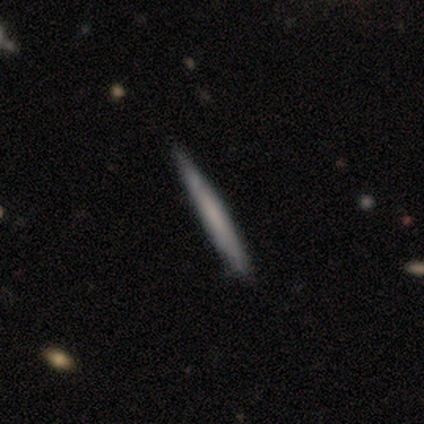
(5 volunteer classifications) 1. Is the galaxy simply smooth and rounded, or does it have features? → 80% smooth, 20% featured or disk, 0% star or artifact.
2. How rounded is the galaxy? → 100% cigar-shaped, 0% round, 0% in between.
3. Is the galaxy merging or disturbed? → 80% none, 20% minor disturbance, 0% major disturbance, 0% merger.